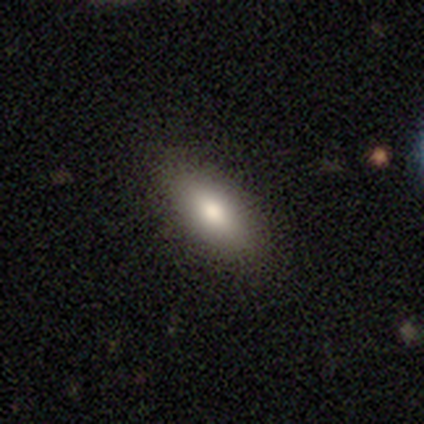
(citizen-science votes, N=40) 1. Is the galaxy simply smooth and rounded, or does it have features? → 75% smooth, 18% featured or disk, 8% star or artifact.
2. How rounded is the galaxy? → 77% in between, 23% cigar-shaped, 0% round.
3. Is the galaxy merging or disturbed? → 89% none, 8% minor disturbance, 3% major disturbance, 0% merger.